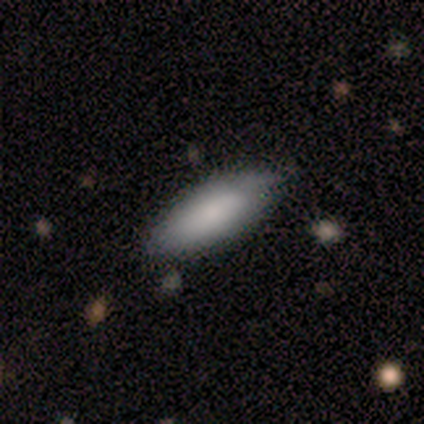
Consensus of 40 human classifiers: smooth 70%, featured or disk 25%, star or artifact 5%. Down the decision tree: how rounded — in between (93%); merging — none (74%).